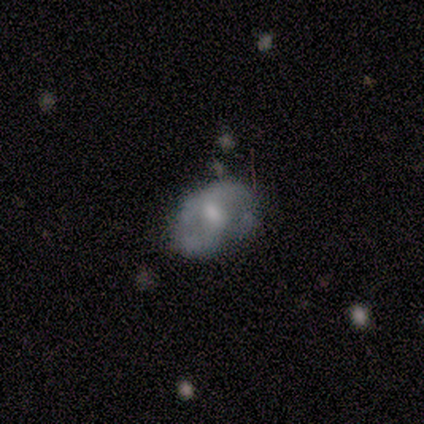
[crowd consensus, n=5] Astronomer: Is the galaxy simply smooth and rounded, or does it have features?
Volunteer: smooth — 60% (runner-up: featured or disk, 40%).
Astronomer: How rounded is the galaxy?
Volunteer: in between — 67%.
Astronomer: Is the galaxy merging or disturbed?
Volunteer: none — 100%.